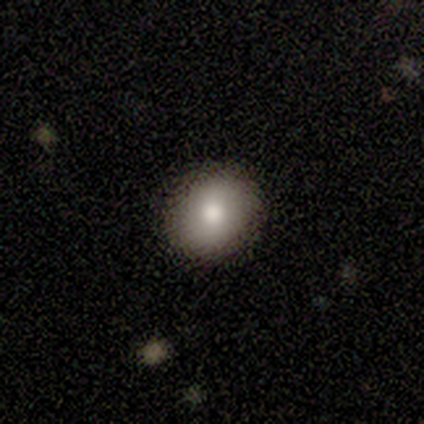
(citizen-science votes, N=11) A smooth galaxy with no disk features (91%) that is round (100%).

Vote fractions:
- Smooth or featured? smooth: 91% / star or artifact: 9% / featured or disk: 0%
- How rounded? round: 100% / in between: 0% / cigar-shaped: 0%
- Merging? none: 100% / minor disturbance: 0% / major disturbance: 0% / merger: 0%